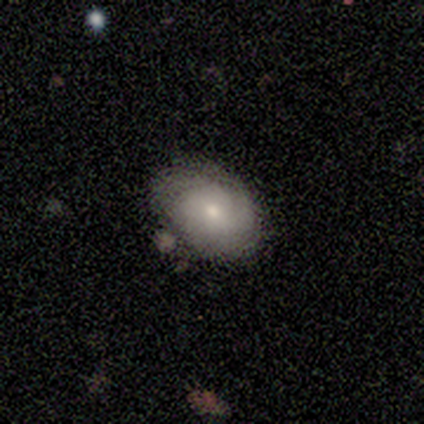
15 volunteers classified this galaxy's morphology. Q: Smooth or featured?
A: featured or disk (67%); runner-up: smooth (33%)
Q: Edge-on disk?
A: no (90%); runner-up: yes (10%)
Q: Bar?
A: no (67%); runner-up: weak (33%)
Q: Spiral arms?
A: yes (89%); runner-up: no (11%)
Q: Spiral winding?
A: tight (88%); runner-up: loose (12%)
Q: Spiral arm count?
A: can't tell (88%); runner-up: 1 (12%)
Q: Bulge size?
A: small (56%); runner-up: moderate (44%)
Q: Merging?
A: none (73%); runner-up: minor disturbance (27%)